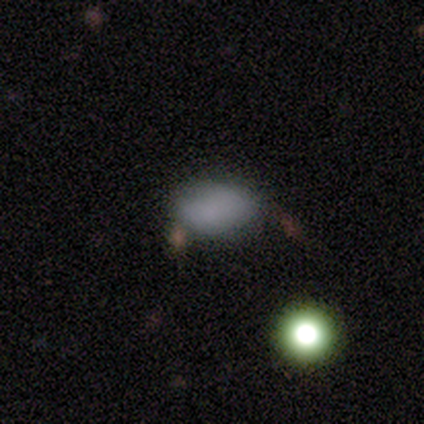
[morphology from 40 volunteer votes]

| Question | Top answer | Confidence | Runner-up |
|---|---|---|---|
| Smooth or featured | smooth | 85% | star or artifact (10%) |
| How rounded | in between | 82% | round (18%) |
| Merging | none | 56% | minor disturbance (25%) |